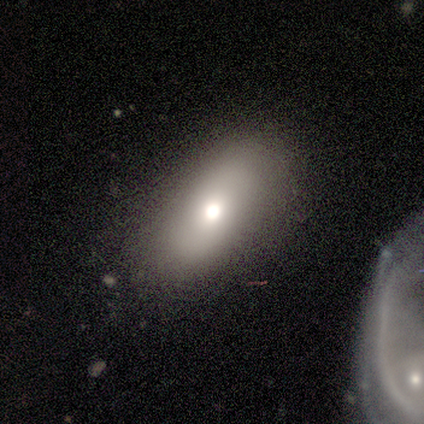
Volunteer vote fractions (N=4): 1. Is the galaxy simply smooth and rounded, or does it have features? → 75% smooth, 25% star or artifact, 0% featured or disk.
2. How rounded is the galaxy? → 100% in between, 0% round, 0% cigar-shaped.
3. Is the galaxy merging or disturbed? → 67% none, 33% minor disturbance, 0% major disturbance, 0% merger.